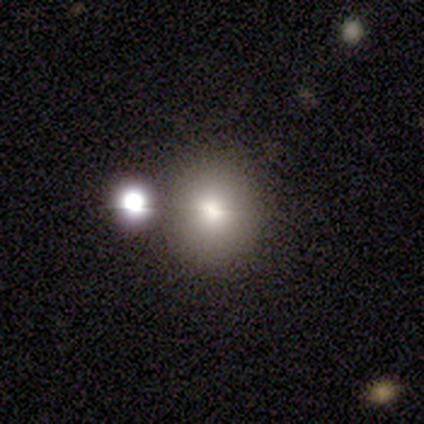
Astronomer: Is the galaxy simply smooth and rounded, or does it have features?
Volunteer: smooth — 69%.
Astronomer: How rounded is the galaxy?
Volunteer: round — 90%.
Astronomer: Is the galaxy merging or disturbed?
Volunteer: none — 83%.